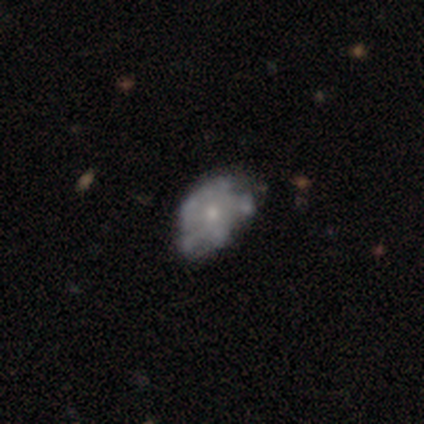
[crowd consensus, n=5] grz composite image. It shows a featured or disk galaxy (100%) with no bar (100%), no spiral arms (80%) and a moderate central bulge (60%). Merging: major disturbance (60%).